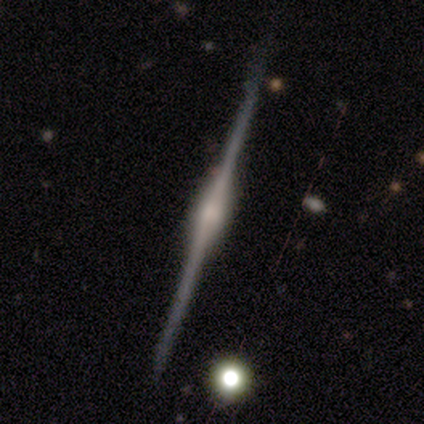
Q: Smooth or featured?
A: featured or disk (80%); runner-up: smooth (20%)
Q: Edge-on disk?
A: yes (100%)
Q: Edge-on bulge?
A: rounded (75%); runner-up: boxy (25%)
Q: Merging?
A: none (100%)